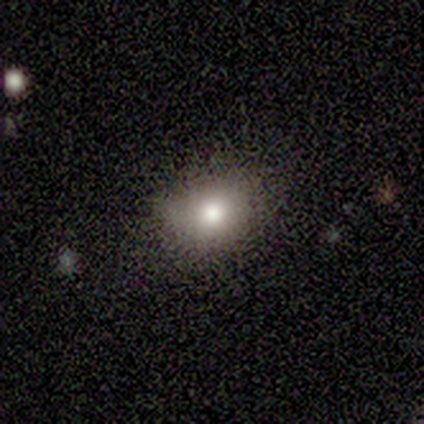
Morphology: type=smooth (60%); roundness=round (67%); merging=none (100%).